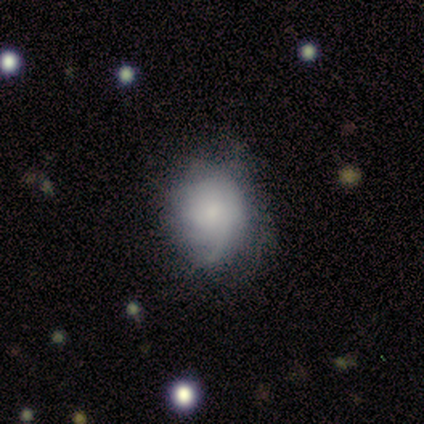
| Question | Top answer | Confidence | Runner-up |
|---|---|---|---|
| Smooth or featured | smooth | 80% | featured or disk (20%) |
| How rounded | round | 100% | — |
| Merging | none | 40% | tied: minor disturbance (40%) |